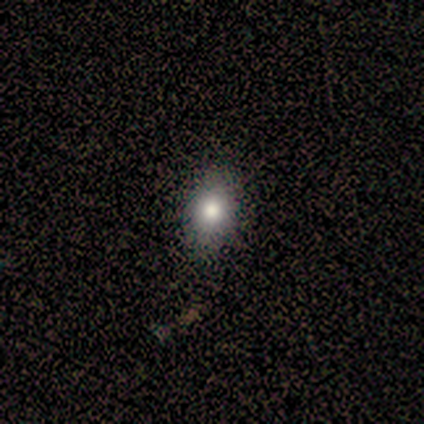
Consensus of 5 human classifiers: smooth 100%, featured or disk 0%, star or artifact 0%. Down the decision tree: how rounded — in between (60%); merging — none (100%).